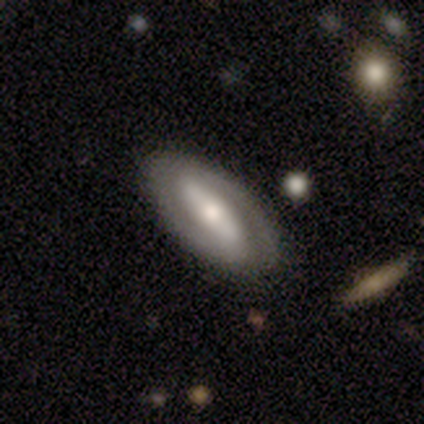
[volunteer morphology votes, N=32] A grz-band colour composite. It shows a featured or disk galaxy (62%) with a strong bar (58%), 2 (93%) tight (47%) spiral arms (79%) and a moderate central bulge (47%). Merging: none (89%).